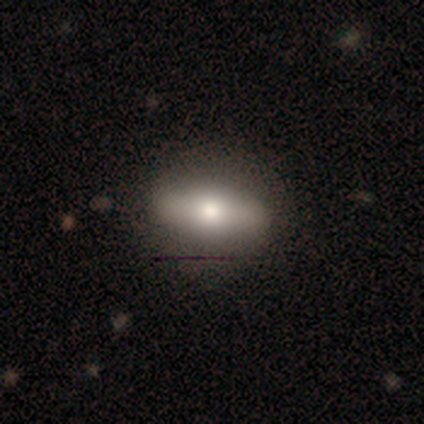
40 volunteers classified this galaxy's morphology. Smooth or featured? 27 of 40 (68%) said smooth. How rounded? 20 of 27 (74%) said in between. Merging? 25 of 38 (66%) said none.